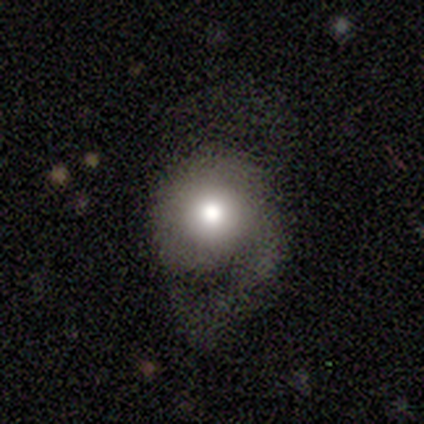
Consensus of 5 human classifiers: Q: Smooth or featured?
A: featured or disk (60%); runner-up: smooth (20%)
Q: Edge-on disk?
A: no (100%)
Q: Bar?
A: no (100%)
Q: Spiral arms?
A: no (67%); runner-up: yes (33%)
Q: Bulge size?
A: moderate (100%)
Q: Merging?
A: minor disturbance (50%); tied with: major disturbance (50%)